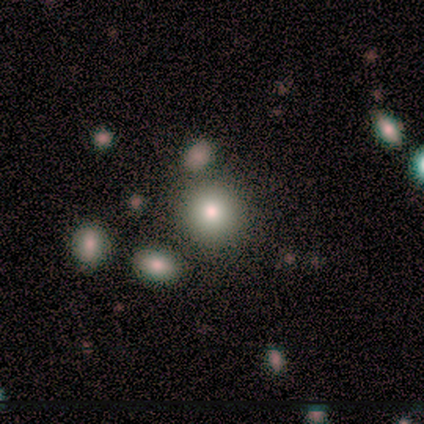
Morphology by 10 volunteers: Q: Smooth or featured?
A: smooth (90%); runner-up: featured or disk (10%)
Q: How rounded?
A: round (89%); runner-up: in between (11%)
Q: Merging?
A: none (60%); runner-up: minor disturbance (20%)